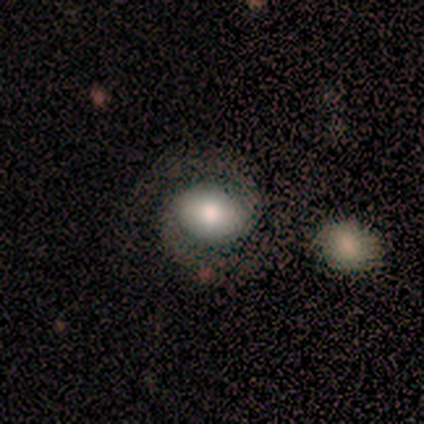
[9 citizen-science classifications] Smooth or featured? featured or disk (89%)
Edge-on disk? no (100%)
Bar? strong (38%, tied with no)
Spiral arms? yes (100%)
Spiral winding? medium (75%)
Spiral arm count? 2 (100%)
Bulge size? moderate (75%)
Merging? none (78%)